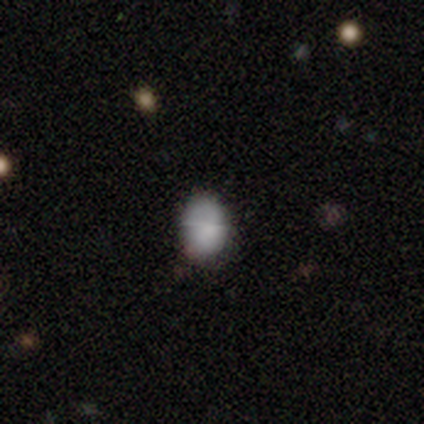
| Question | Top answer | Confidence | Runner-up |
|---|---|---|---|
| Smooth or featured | smooth | 80% | star or artifact (20%) |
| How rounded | round | 50% | tied: in between (50%) |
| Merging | none | 100% | — |